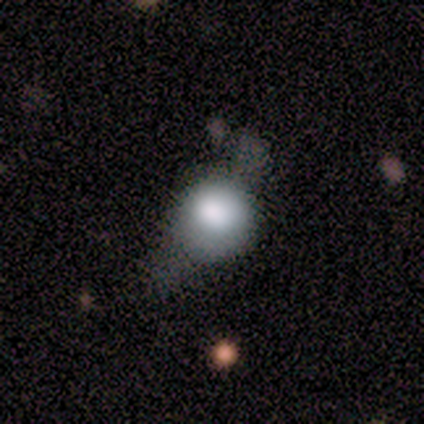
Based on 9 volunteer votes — Smooth or featured? 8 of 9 (89%) said smooth. How rounded? 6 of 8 (75%) said round. Merging? 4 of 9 (44%, tied with major disturbance) said minor disturbance.